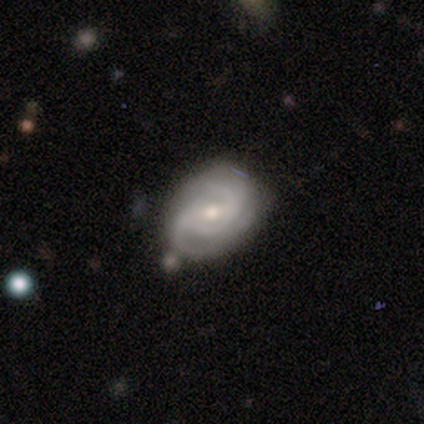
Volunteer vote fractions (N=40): Smooth or featured? featured or disk (92%)
Edge-on disk? no (97%)
Bar? weak (67%)
Spiral arms? yes (94%)
Spiral winding? medium (47%)
Spiral arm count? 2 (35%)
Bulge size? moderate (61%)
Merging? none (49%)